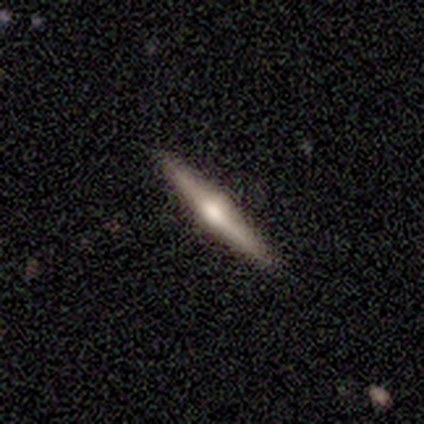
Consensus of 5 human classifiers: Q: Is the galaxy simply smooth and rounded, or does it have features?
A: featured or disk — 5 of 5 (100%).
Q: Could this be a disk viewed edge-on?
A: yes — 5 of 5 (100%).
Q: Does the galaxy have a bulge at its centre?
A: rounded — 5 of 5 (100%).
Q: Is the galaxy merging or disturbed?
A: none — 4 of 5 (80%).